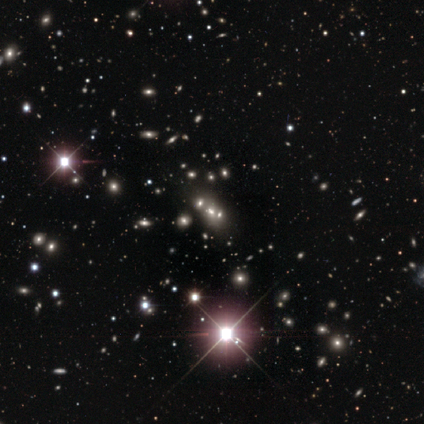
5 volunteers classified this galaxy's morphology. A star or artifact, not a galaxy (80%).